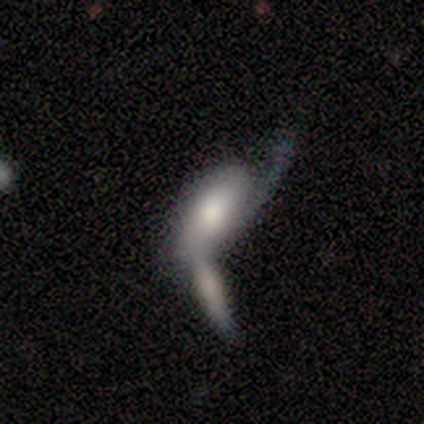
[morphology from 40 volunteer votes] Smooth or featured?
  - featured or disk: 60% *
  - smooth: 40%
  - star or artifact: 0%
Edge-on disk?
  - no: 71% *
  - yes: 29%
Bar?
  - no: 71% *
  - weak: 29%
  - strong: 0%
Spiral arms?
  - no: 65% *
  - yes: 35%
Bulge size?
  - large: 47% *
  - small: 29%
  - moderate: 18%
  - none: 6%
  - dominant: 0%
Merging?
  - merger: 62% *
  - major disturbance: 22%
  - none: 12%
  - minor disturbance: 2%